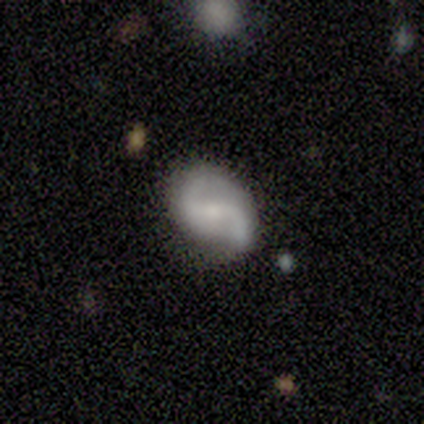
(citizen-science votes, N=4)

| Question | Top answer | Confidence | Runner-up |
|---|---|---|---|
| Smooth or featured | featured or disk | 100% | — |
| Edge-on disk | no | 100% | — |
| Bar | weak | 50% | strong (25%) |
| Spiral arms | yes | 100% | — |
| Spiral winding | loose | 75% | medium (25%) |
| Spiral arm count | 2 | 100% | — |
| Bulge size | small | 75% | moderate (25%) |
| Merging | none | 75% | minor disturbance (25%) |